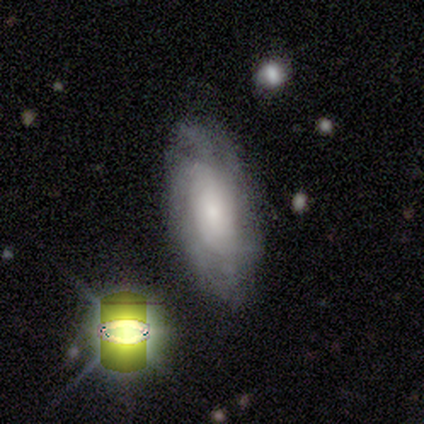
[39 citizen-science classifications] Q: Smooth or featured?
A: featured or disk (59%); runner-up: smooth (28%)
Q: Edge-on disk?
A: no (96%); runner-up: yes (4%)
Q: Bar?
A: no (77%); runner-up: weak (18%)
Q: Spiral arms?
A: yes (91%); runner-up: no (9%)
Q: Spiral winding?
A: tight (70%); runner-up: medium (25%)
Q: Spiral arm count?
A: can't tell (85%); runner-up: 3 (5%)
Q: Bulge size?
A: small (59%); runner-up: moderate (23%)
Q: Merging?
A: none (68%); runner-up: minor disturbance (21%)